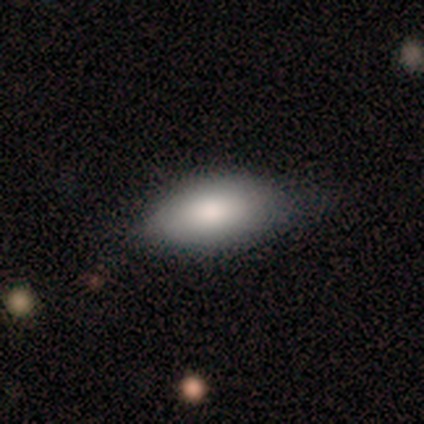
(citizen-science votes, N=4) A smooth galaxy with no disk features (100%) that is in between round and cigar-shaped (100%). Merging: none (75%).